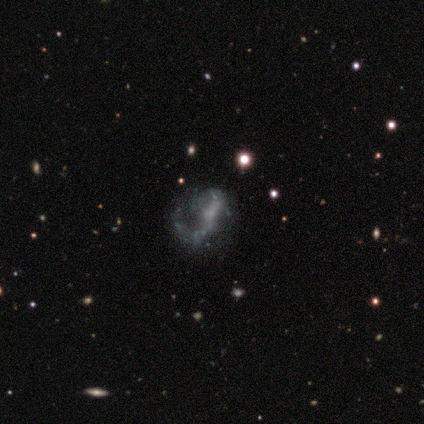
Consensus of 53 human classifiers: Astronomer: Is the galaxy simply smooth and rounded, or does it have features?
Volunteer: featured or disk — 70%.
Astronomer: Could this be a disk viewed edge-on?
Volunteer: no — 100%.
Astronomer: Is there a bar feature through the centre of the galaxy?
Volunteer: no — 46% (runner-up: weak, 32%).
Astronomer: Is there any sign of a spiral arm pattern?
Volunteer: yes — 65%.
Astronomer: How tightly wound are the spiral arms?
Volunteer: loose — 50% (runner-up: medium, 42%).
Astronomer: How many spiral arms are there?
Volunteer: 1 — 62%.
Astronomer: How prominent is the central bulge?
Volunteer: none — 62%.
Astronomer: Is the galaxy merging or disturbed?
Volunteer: major disturbance — 40% (runner-up: none, 38%).